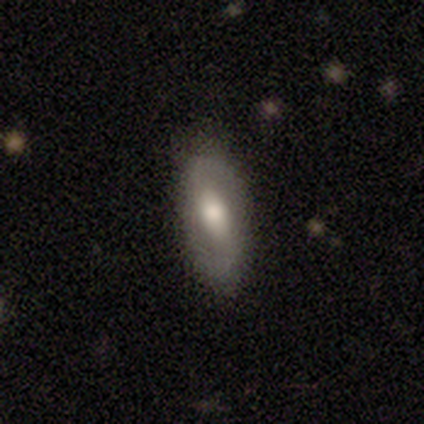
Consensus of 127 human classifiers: featured or disk 56%, smooth 40%, star or artifact 4%. Down the decision tree: edge-on disk — no (94%); bar — weak (42%); spiral arms — yes (79%); spiral arm count — 2 (100%); spiral winding — loose (62%); bulge size — moderate (63%); merging — none (84%).